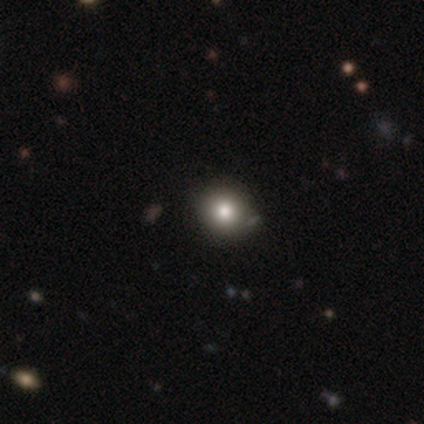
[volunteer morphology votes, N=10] smooth-or-featured: smooth: 80% | star or artifact: 20% | featured or disk: 0%
  how-rounded: round: 62% | in between: 38% | cigar-shaped: 0%
  merging: none: 75% | minor disturbance: 12% | merger: 12% | major disturbance: 0%